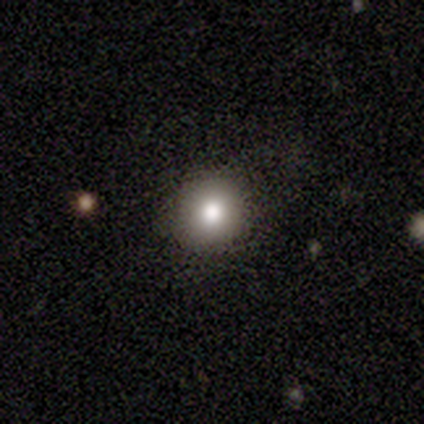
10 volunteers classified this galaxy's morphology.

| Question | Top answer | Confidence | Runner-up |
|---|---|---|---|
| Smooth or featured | smooth | 70% | star or artifact (20%) |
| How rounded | round | 100% | — |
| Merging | none | 88% | major disturbance (12%) |